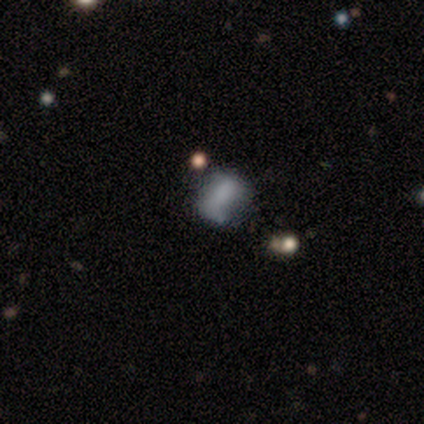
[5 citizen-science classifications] A smooth galaxy with no disk features (100%) that is in between round and cigar-shaped (100%). Merging: major disturbance (60%).